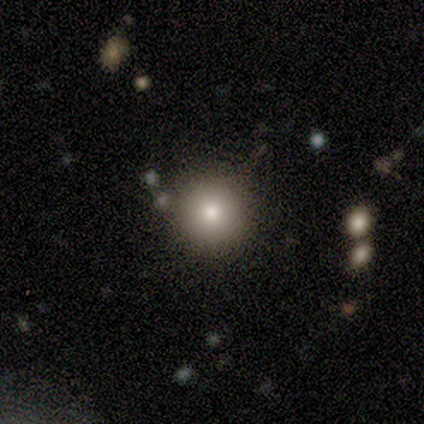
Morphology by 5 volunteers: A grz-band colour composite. It shows a smooth galaxy with no disk features (60%) that is round (100%). Merging: none (100%).